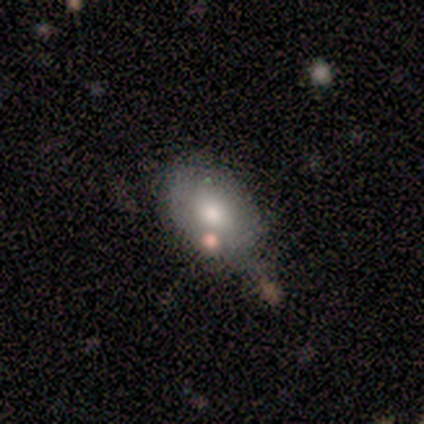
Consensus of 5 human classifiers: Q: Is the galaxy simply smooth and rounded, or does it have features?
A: smooth — 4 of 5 (80%).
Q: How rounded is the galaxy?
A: in between — 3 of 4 (75%).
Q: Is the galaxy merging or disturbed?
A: none — 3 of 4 (75%).